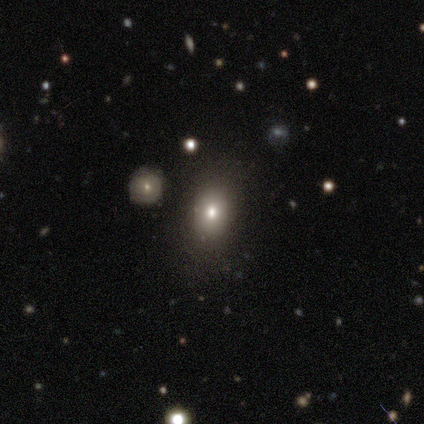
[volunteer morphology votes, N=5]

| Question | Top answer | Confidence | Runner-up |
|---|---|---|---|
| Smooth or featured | smooth | 80% | star or artifact (20%) |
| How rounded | round | 50% | tied: in between (50%) |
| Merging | none | 50% | minor disturbance (25%) |